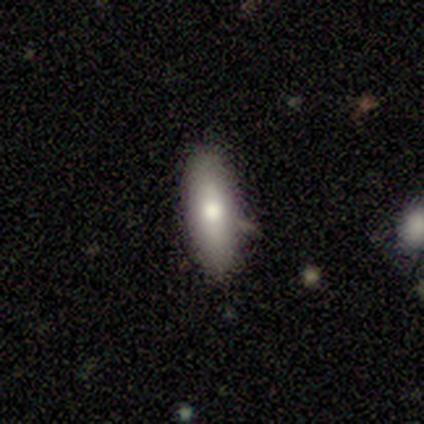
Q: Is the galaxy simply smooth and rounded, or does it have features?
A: smooth — 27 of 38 (71%).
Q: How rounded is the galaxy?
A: in between — 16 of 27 (59%).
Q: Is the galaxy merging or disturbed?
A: none — 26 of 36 (72%).